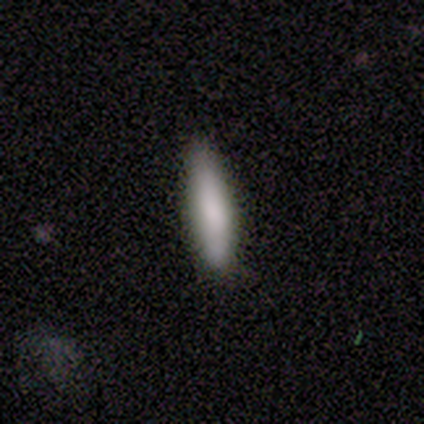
smooth_or_featured: smooth (p=0.80) [alt: star or artifact p=0.20]
how_rounded: in between (p=0.50) [tied with: cigar-shaped p=0.50]
merging: none (p=0.75) [alt: minor disturbance p=0.25]